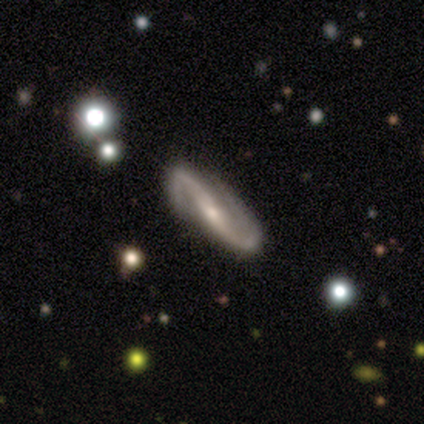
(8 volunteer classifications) Smooth or featured: featured or disk — 100%
Edge-on disk: no — 75% (yes — 25%)
Bar: strong — 50% (no — 33%)
Spiral arms: yes — 100%
Spiral winding: loose — 67% (tight — 33%)
Spiral arm count: 2 — 100%
Bulge size: small — 67% (moderate — 33%)
Merging: none — 88% (major disturbance — 12%)